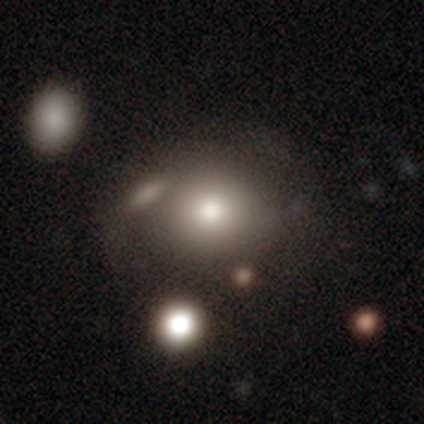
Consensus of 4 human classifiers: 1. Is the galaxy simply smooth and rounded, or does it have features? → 100% smooth, 0% featured or disk, 0% star or artifact.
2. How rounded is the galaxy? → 75% round, 25% in between, 0% cigar-shaped.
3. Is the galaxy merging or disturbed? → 50% none, 25% major disturbance, 25% merger, 0% minor disturbance.